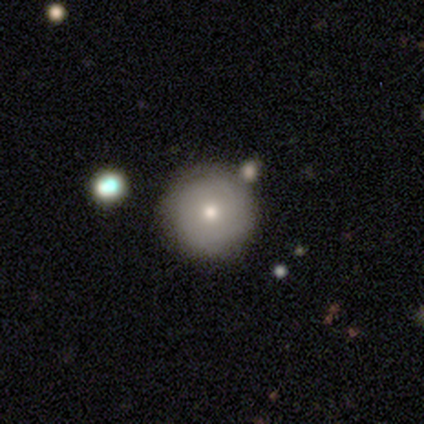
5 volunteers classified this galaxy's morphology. Smooth or featured: smooth — 100%
How rounded: round — 100%
Merging: none — 80% (merger — 20%)